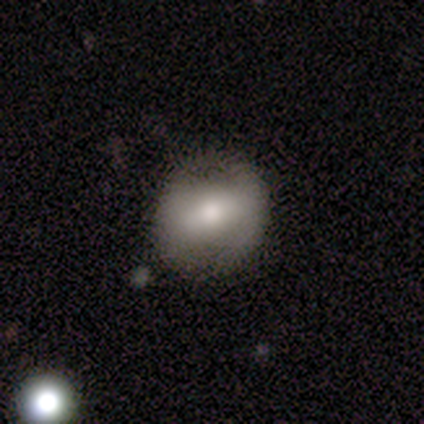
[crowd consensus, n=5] Volunteers were most divided on "smooth or featured": smooth: 60%, featured or disk: 40%, star or artifact: 0%. More confident: how rounded — in between (100%); merging — none (60%).